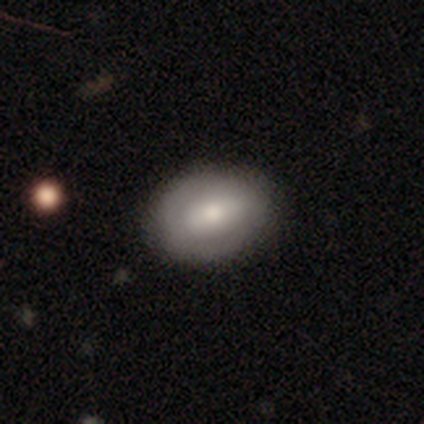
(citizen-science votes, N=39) Smooth or featured? 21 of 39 (54%) said smooth. How rounded? 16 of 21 (76%) said in between. Merging? 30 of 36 (83%) said none.